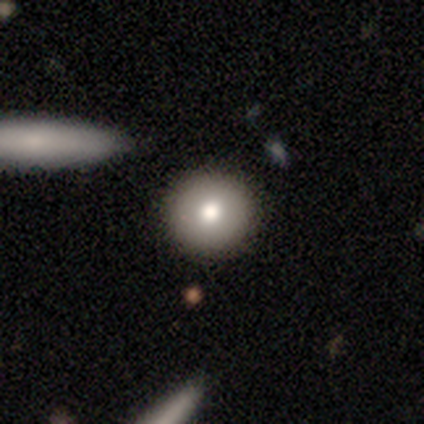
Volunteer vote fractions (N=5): This appears to be a smooth galaxy with no disk features (60%) that is round (100%). Merging: none (100%).